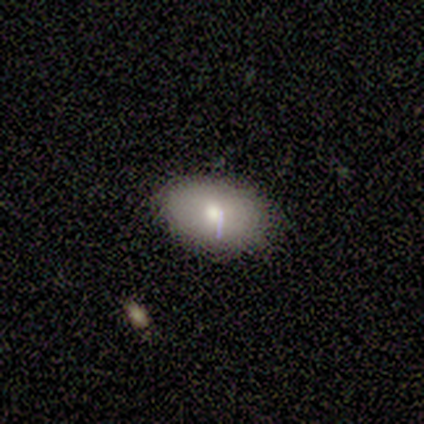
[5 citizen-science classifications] Morphology: type=smooth (100%); roundness=in between (80%); merging=none (100%).